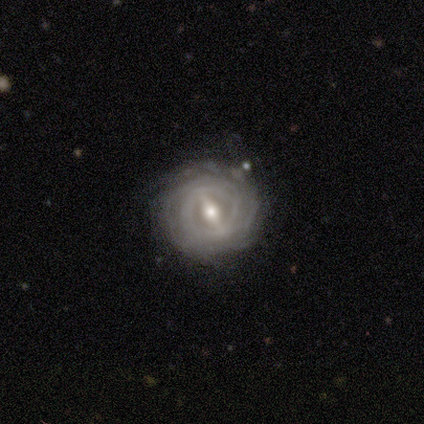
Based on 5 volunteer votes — This appears to be a featured or disk galaxy (100%) with a weak bar (60%), tight (100%) spiral arms (100%) and a small central bulge (100%). Merging: none (100%).